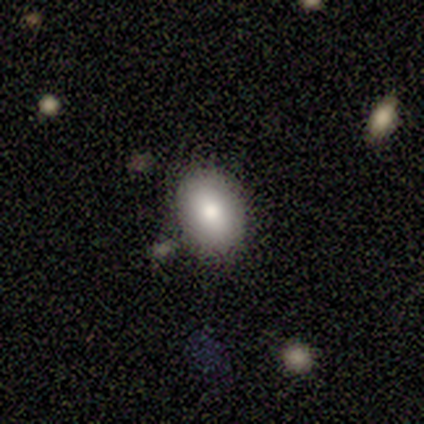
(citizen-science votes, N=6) Overall: smooth (67%; featured or disk 33%). How rounded: round (50%, tied with in between). Merging: none (83%).